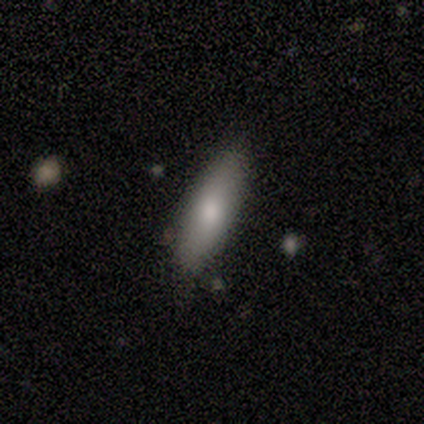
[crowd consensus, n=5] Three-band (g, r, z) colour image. It shows a smooth galaxy with no disk features (80%) that is cigar-shaped (100%). Merging: none (100%).